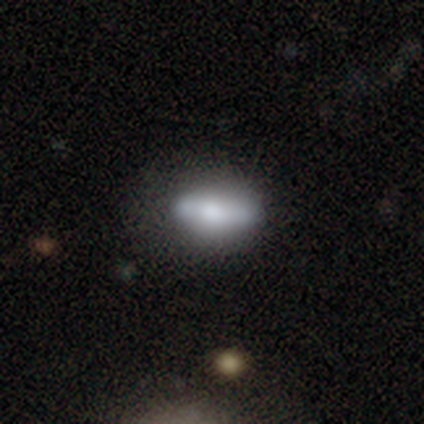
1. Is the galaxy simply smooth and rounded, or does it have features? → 64% smooth, 28% featured or disk, 8% star or artifact.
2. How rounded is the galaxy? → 88% in between, 8% cigar-shaped, 4% round.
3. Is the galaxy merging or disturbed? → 50% none, 28% minor disturbance, 14% major disturbance, 8% merger.